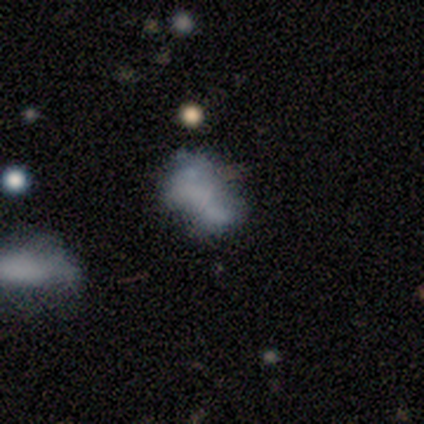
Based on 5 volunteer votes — Q: Smooth or featured?
A: smooth (60%); runner-up: featured or disk (40%)
Q: How rounded?
A: in between (100%)
Q: Merging?
A: merger (40%); runner-up: none (20%)